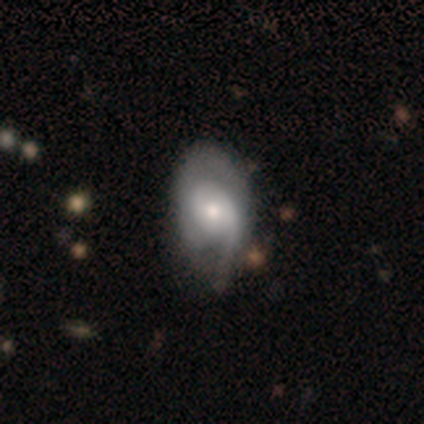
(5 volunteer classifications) smooth_or_featured: featured or disk (p=0.80) [alt: smooth p=0.20]
disk_edge_on: no (p=1.00)
bar: no (p=0.75) [alt: weak p=0.25]
has_spiral_arms: yes (p=0.75) [alt: no p=0.25]
spiral_winding: loose (p=0.67) [alt: medium p=0.33]
spiral_arm_count: 2 (p=0.67) [alt: 1 p=0.33]
bulge_size: small (p=0.75) [alt: moderate p=0.25]
merging: minor disturbance (p=0.60) [alt: none p=0.40]